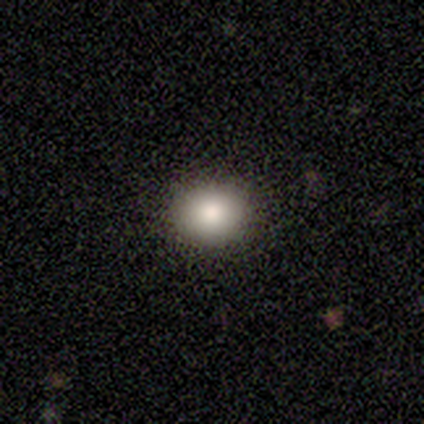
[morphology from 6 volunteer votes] smooth 100%, featured or disk 0%, star or artifact 0%. Down the decision tree: how rounded — round (83%); merging — none (100%).